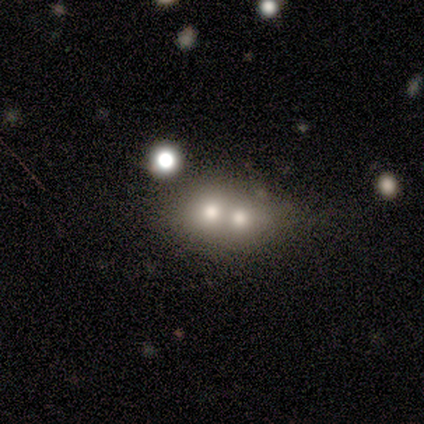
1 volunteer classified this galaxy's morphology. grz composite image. It shows a featured or disk galaxy (100%) with no bar (100%), no spiral arms (100%) and a large central bulge (100%). Merging: merger (100%).